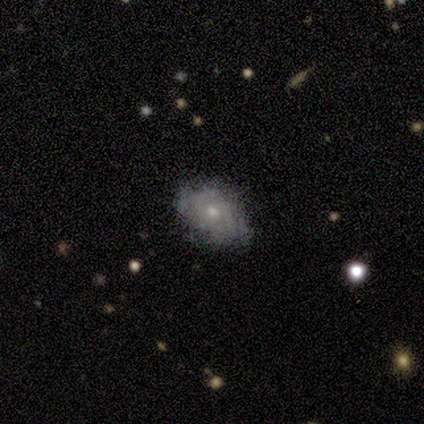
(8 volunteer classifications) A featured or disk galaxy (50%) with no bar (100%), no spiral arms (67%) and a moderate central bulge (67%).

Vote fractions:
- Smooth or featured? featured or disk: 50% / smooth: 38% / star or artifact: 12%
- Edge-on disk? no: 75% / yes: 25%
- Bar? no: 100% / strong: 0% / weak: 0%
- Spiral arms? no: 67% / yes: 33%
- Bulge size? moderate: 67% / small: 33% / dominant: 0% / large: 0% / none: 0%
- Merging? none: 71% / minor disturbance: 29% / major disturbance: 0% / merger: 0%